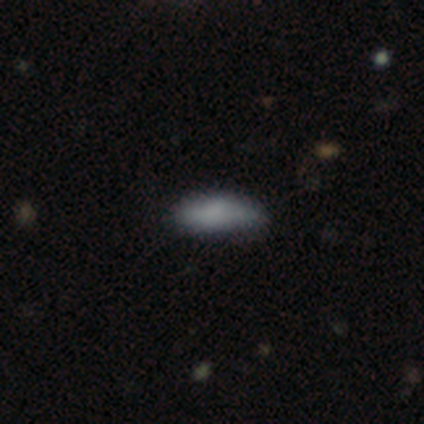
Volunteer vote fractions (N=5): Overall: smooth (100%). How rounded: in between (60%; cigar-shaped 40%). Merging: none (60%; minor disturbance 40%).